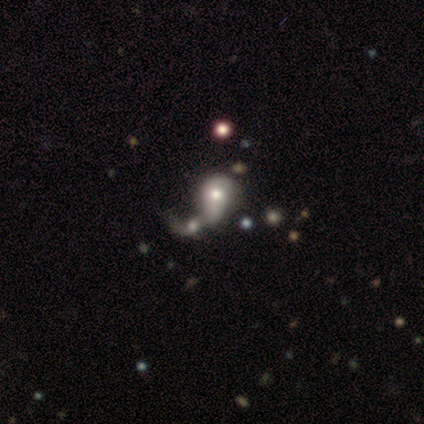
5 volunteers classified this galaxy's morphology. Smooth or featured?
  - featured or disk: 60% *
  - smooth: 40%
  - star or artifact: 0%
Edge-on disk?
  - no: 100% *
  - yes: 0%
Bar?
  - no: 100% *
  - strong: 0%
  - weak: 0%
Spiral arms?
  - no: 100% *
  - yes: 0%
Bulge size?
  - moderate: 67% *
  - large: 33%
  - dominant: 0%
  - small: 0%
  - none: 0%
Merging?
  - merger: 80% *
  - minor disturbance: 20%
  - none: 0%
  - major disturbance: 0%